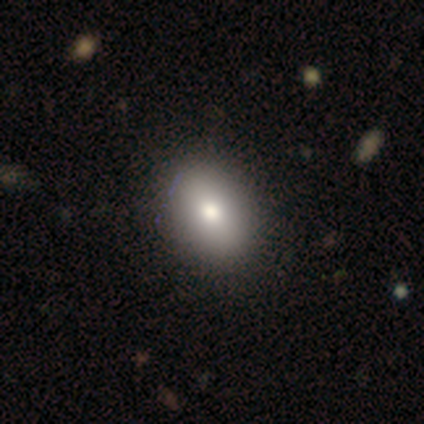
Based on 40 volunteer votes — Smooth or featured?
  - smooth: 85% *
  - star or artifact: 10%
  - featured or disk: 5%
How rounded?
  - in between: 74% *
  - round: 26%
  - cigar-shaped: 0%
Merging?
  - none: 69% *
  - merger: 3%
  - minor disturbance: 0%
  - major disturbance: 0%